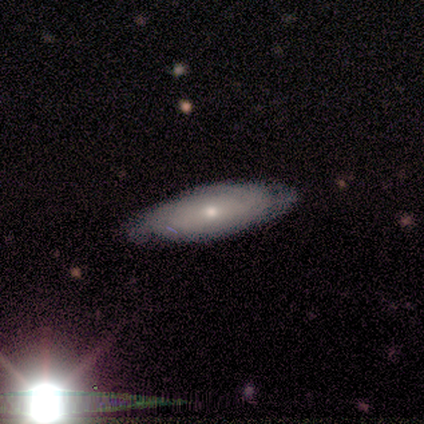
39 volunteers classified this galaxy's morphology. Overall: featured or disk (54%; smooth 38%). Edge-on disk: no (67%; yes 33%). Bar: no (86%). Spiral arms: yes (79%). Spiral arm count: can't tell (91%). Spiral winding: tight (73%). Bulge size: small (50%; moderate 43%). Merging: none (72%).